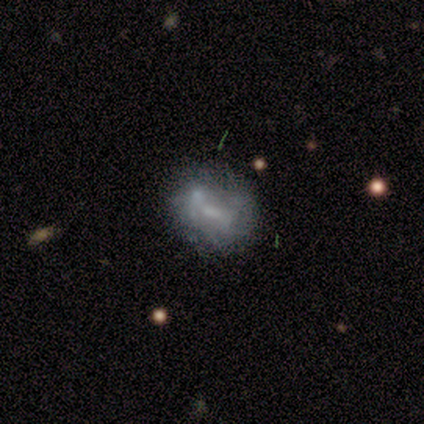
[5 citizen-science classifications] Q: Smooth or featured?
A: smooth (40%); tied with: featured or disk (40%)
Q: How rounded?
A: in between (100%)
Q: Merging?
A: minor disturbance (50%); runner-up: none (25%)